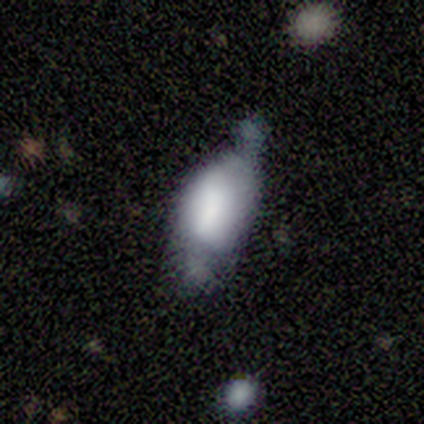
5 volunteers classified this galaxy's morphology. smooth-or-featured: smooth: 80% | featured or disk: 20% | star or artifact: 0%
  how-rounded: in between: 100% | round: 0% | cigar-shaped: 0%
  merging: minor disturbance: 60% | none: 40% | major disturbance: 0% | merger: 0%